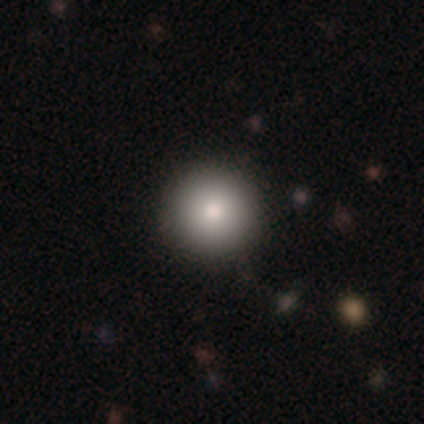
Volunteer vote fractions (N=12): Smooth or featured?
  - smooth: 100% *
  - featured or disk: 0%
  - star or artifact: 0%
How rounded?
  - round: 100% *
  - in between: 0%
  - cigar-shaped: 0%
Merging?
  - none: 100% *
  - minor disturbance: 0%
  - major disturbance: 0%
  - merger: 0%